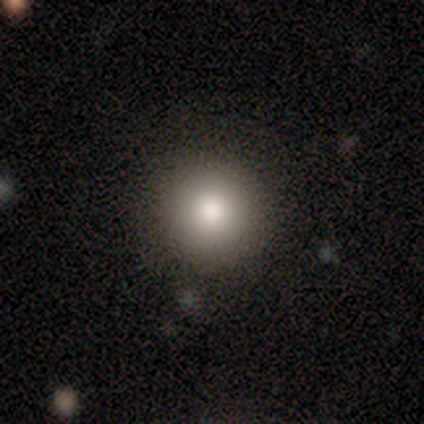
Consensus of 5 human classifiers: smooth 60%, featured or disk 40%, star or artifact 0%. Down the decision tree: how rounded — round (100%); merging — none (100%).